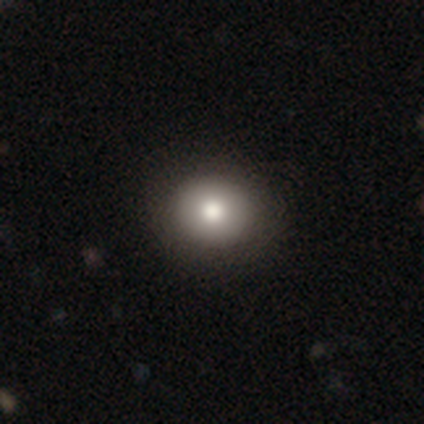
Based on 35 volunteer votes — A smooth galaxy with no disk features (77%) that is round (85%). Merging: none (53%).